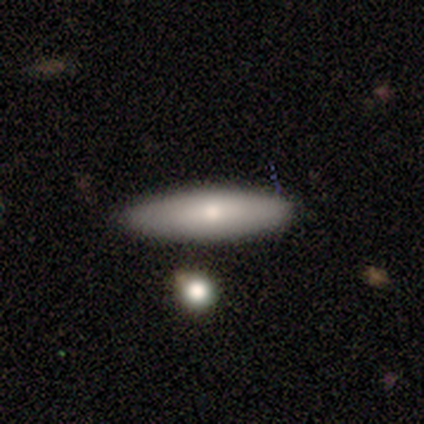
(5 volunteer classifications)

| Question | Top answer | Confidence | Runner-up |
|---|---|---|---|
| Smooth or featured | smooth | 100% | — |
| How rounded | cigar-shaped | 60% | in between (40%) |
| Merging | none | 80% | minor disturbance (20%) |